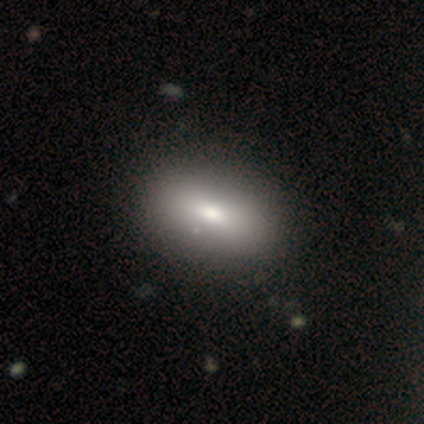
This appears to be a smooth galaxy with no disk features (85%) that is in between round and cigar-shaped (91%). Merging: none (52%).